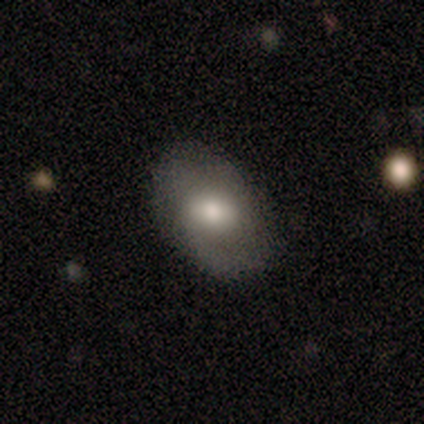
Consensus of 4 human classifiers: Morphology: type=smooth (50%); roundness=in between (100%); merging=none (67%).